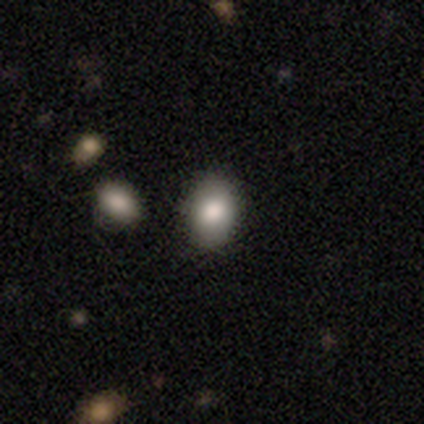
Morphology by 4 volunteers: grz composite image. It shows a smooth galaxy with no disk features (75%) that is in between round and cigar-shaped (67%). Merging: none (100%).